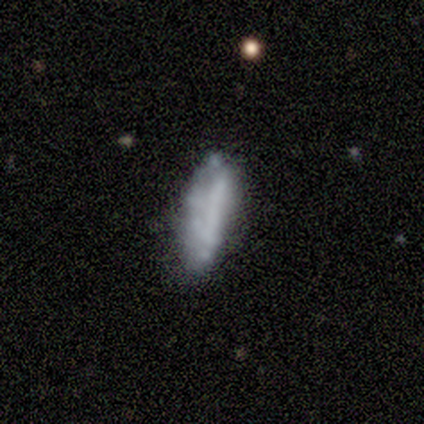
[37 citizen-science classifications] smooth-or-featured: smooth: 51% | featured or disk: 43% | star or artifact: 5%
  how-rounded: in between: 58% | cigar-shaped: 42% | round: 0%
  merging: none: 57% | major disturbance: 23% | minor disturbance: 20% | merger: 0%